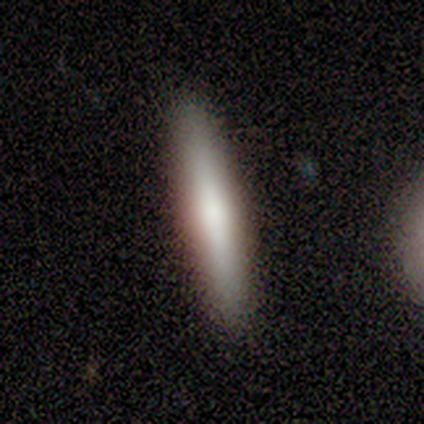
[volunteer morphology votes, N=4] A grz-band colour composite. It shows a smooth galaxy with no disk features (100%) that is cigar-shaped (100%). Merging: none (100%).